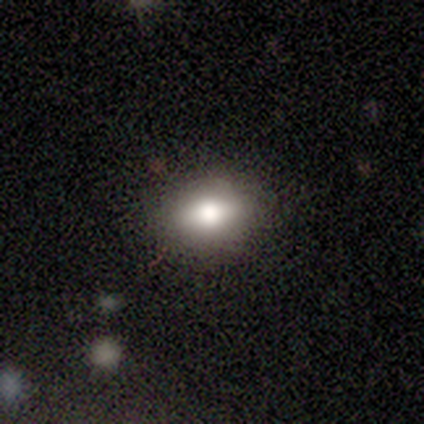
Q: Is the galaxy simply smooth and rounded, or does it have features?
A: smooth — 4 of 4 (100%).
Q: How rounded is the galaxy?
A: in between — 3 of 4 (75%).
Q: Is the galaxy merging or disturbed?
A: none — 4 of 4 (100%).